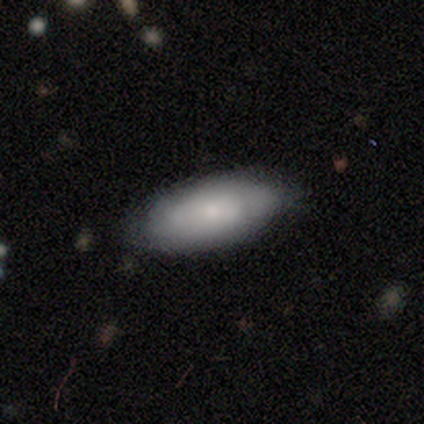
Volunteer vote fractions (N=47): Overall: smooth (72%). How rounded: in between (97%). Merging: none (87%).